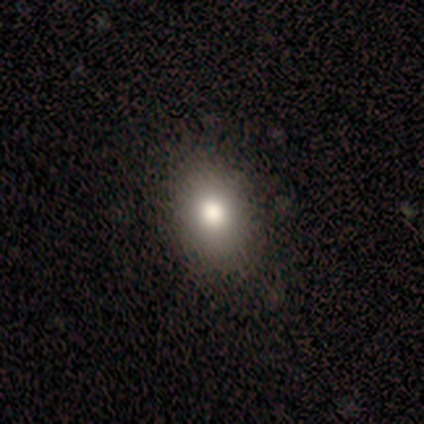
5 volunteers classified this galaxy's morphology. Smooth or featured? smooth (80%)
How rounded? in between (75%)
Merging? none (100%)